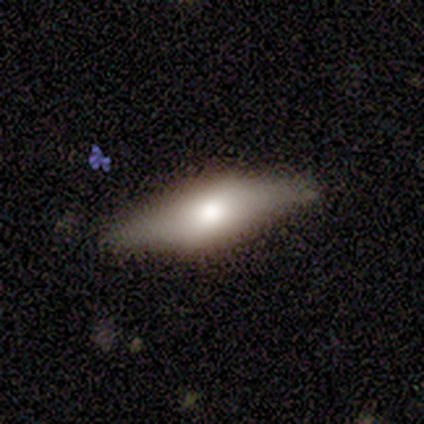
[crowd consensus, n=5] Morphology: type=featured or disk (60%); edge-on=yes (67%); edge-on bulge=rounded (100%); merging=none (40%, tied with minor disturbance).